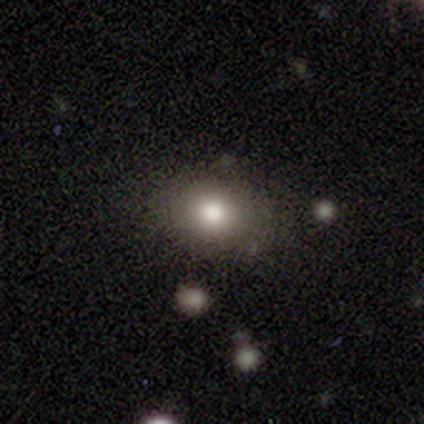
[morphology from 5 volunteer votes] This appears to be a smooth galaxy with no disk features (100%) that is round (60%). Merging: none (100%).